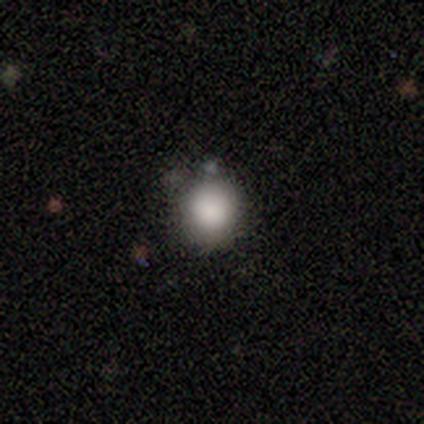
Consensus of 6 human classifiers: smooth-or-featured: smooth: 83% | featured or disk: 17% | star or artifact: 0%
  how-rounded: round: 100% | in between: 0% | cigar-shaped: 0%
  merging: none: 83% | merger: 17% | minor disturbance: 0% | major disturbance: 0%